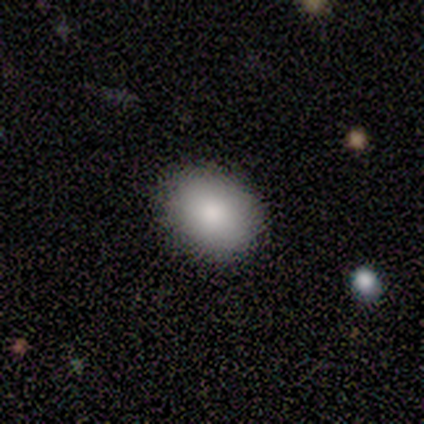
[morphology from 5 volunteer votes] Q: Smooth or featured?
A: smooth (80%); runner-up: star or artifact (20%)
Q: How rounded?
A: round (75%); runner-up: in between (25%)
Q: Merging?
A: none (75%); runner-up: merger (25%)